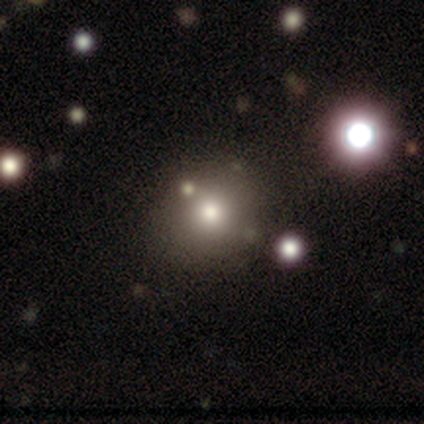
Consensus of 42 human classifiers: Smooth or featured? 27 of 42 (64%) said smooth. How rounded? 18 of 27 (67%) said round. Merging? 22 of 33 (67%) said none.